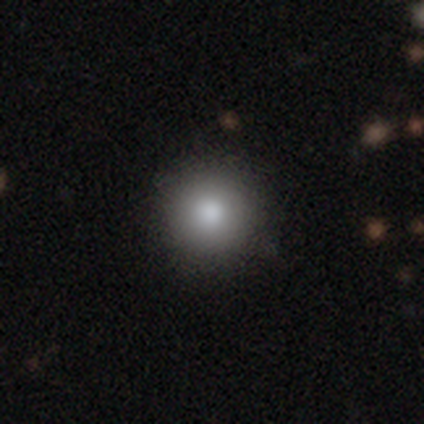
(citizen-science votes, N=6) This appears to be a smooth galaxy with no disk features (83%) that is round (100%). Merging: minor disturbance (60%).